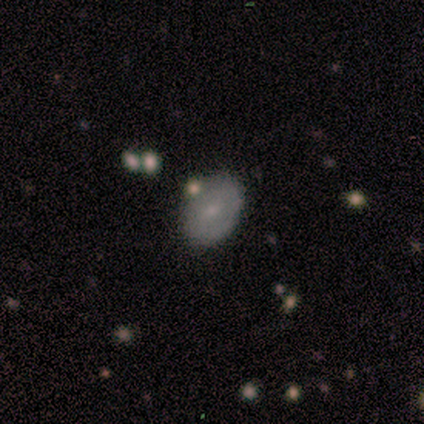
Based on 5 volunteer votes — Smooth or featured: smooth — 80% (featured or disk — 20%)
How rounded: in between — 100%
Merging: none — 80% (minor disturbance — 20%)